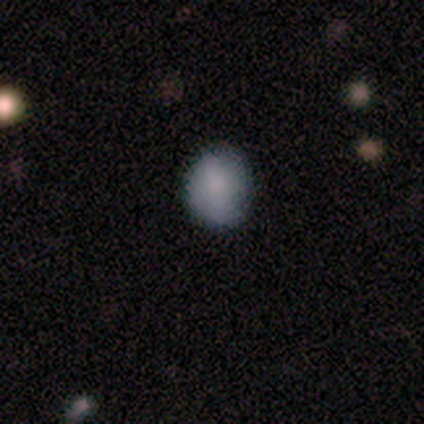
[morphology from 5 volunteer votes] Volunteers were most divided on "how rounded": in between: 60%, round: 40%, cigar-shaped: 0%. More confident: smooth or featured — smooth (100%); merging — none (80%).